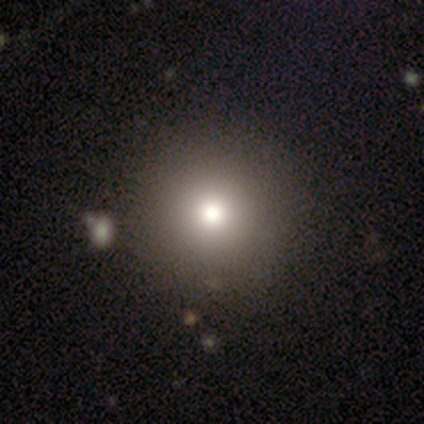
A smooth galaxy with no disk features (75%) that is round (67%).

Vote fractions:
- Smooth or featured? smooth: 75% / featured or disk: 25% / star or artifact: 0%
- How rounded? round: 67% / in between: 33% / cigar-shaped: 0%
- Merging? none: 100% / minor disturbance: 0% / major disturbance: 0% / merger: 0%